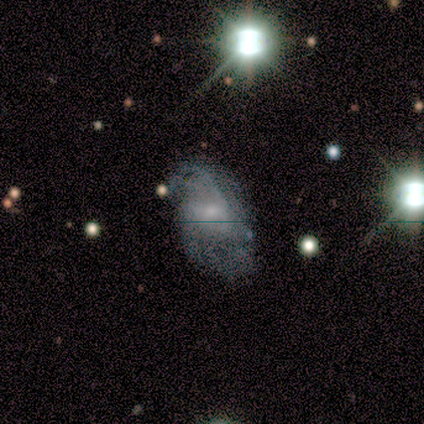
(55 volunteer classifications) Smooth or featured? 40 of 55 (73%) said featured or disk. Edge-on disk? 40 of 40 (100%) said no. Bar? 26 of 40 (65%) said no. Spiral arms? 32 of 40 (80%) said yes. Spiral winding? 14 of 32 (44%) said medium. Spiral arm count? 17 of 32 (53%) said can't tell. Bulge size? 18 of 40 (45%) said moderate. Merging? 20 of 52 (38%) said none.